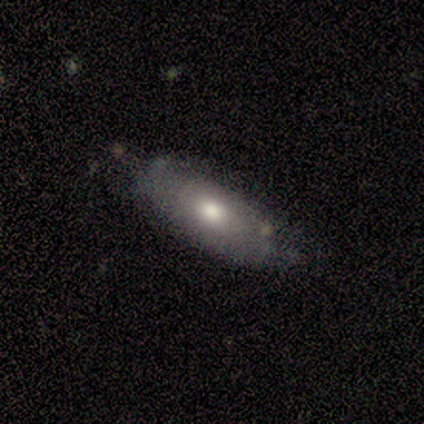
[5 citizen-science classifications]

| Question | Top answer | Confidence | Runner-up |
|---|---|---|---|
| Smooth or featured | smooth | 60% | featured or disk (40%) |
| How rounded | in between | 100% | — |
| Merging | none | 60% | minor disturbance (40%) |